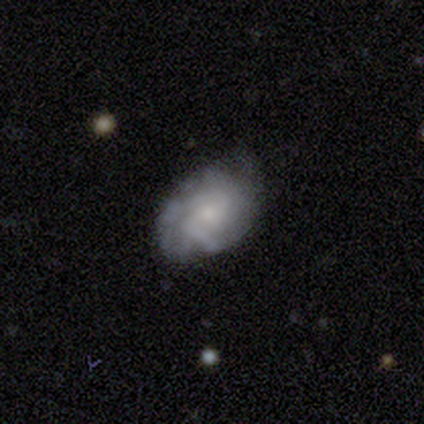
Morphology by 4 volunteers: Smooth or featured? smooth (50%, tied with featured or disk)
How rounded? in between (100%)
Merging? minor disturbance (50%)